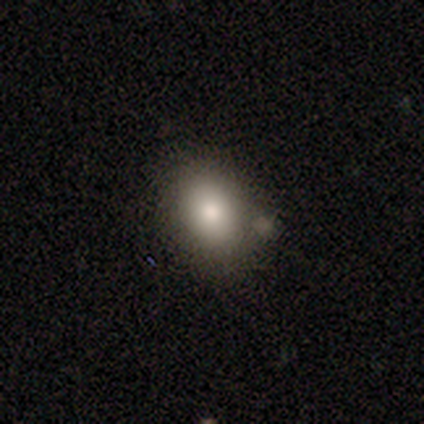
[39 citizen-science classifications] Smooth or featured?
  - smooth: 79% *
  - featured or disk: 15%
  - star or artifact: 5%
How rounded?
  - in between: 71% *
  - round: 29%
  - cigar-shaped: 0%
Merging?
  - none: 73% *
  - minor disturbance: 19%
  - merger: 5%
  - major disturbance: 3%